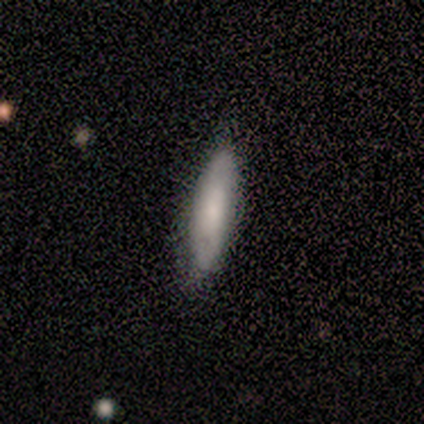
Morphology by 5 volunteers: smooth-or-featured: smooth: 60% | featured or disk: 40% | star or artifact: 0%
  how-rounded: cigar-shaped: 100% | round: 0% | in between: 0%
  merging: minor disturbance: 60% | none: 40% | major disturbance: 0% | merger: 0%